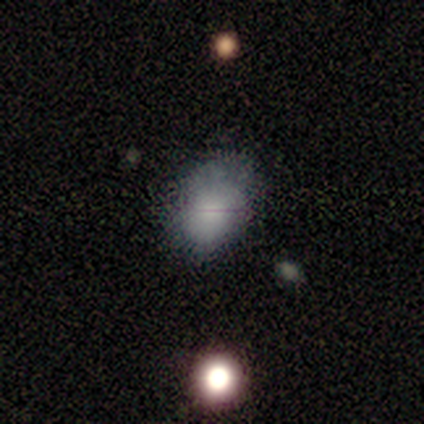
A smooth galaxy with no disk features (75%) that is in between round and cigar-shaped (83%).

Vote fractions:
- Smooth or featured? smooth: 75% / featured or disk: 25% / star or artifact: 0%
- How rounded? in between: 83% / round: 17% / cigar-shaped: 0%
- Merging? none: 50% / minor disturbance: 38% / major disturbance: 12% / merger: 0%